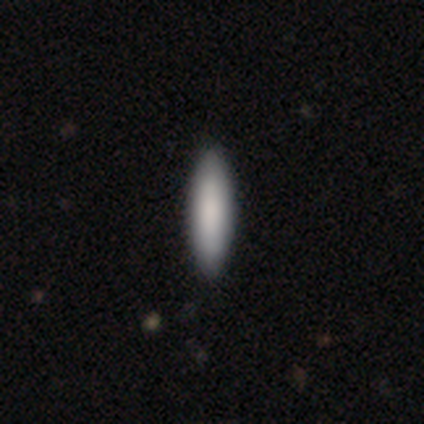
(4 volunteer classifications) Volunteers were most divided on "how rounded": cigar-shaped: 75%, in between: 25%, round: 0%. More confident: smooth or featured — smooth (100%); merging — none (75%).